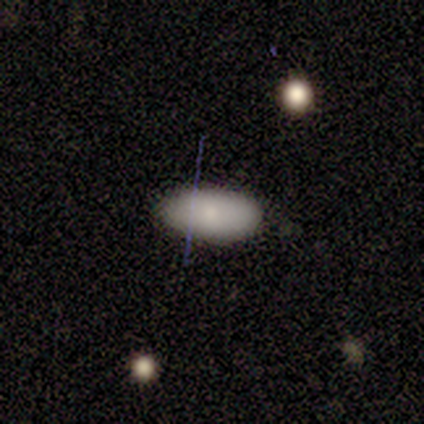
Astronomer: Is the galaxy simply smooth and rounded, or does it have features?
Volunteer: smooth — 60% (runner-up: featured or disk, 40%).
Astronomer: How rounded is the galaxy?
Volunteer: in between — 100%.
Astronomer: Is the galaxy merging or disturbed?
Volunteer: none — 100%.